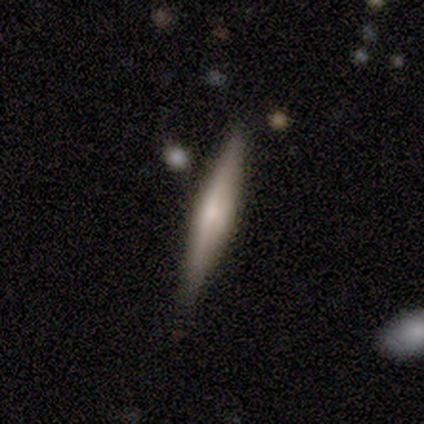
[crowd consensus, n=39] Volunteers were most divided on "edge-on bulge": rounded: 58%, none: 33%, boxy: 8%. More confident: edge-on disk — yes (100%); merging — none (79%); smooth or featured — featured or disk (62%).